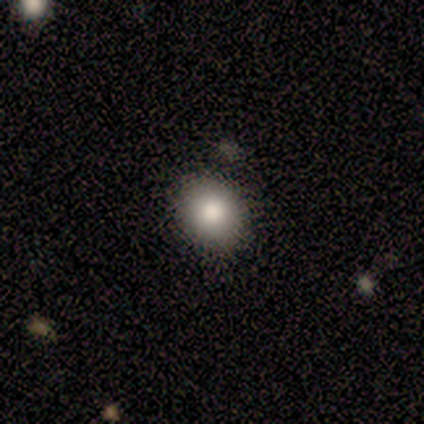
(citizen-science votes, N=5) Volunteers were most divided on "smooth or featured" (2-way tie): smooth: 40%, star or artifact: 40%, featured or disk: 20%; "how rounded" (2-way tie): round: 50%, in between: 50%, cigar-shaped: 0%. More confident: merging — none (67%).